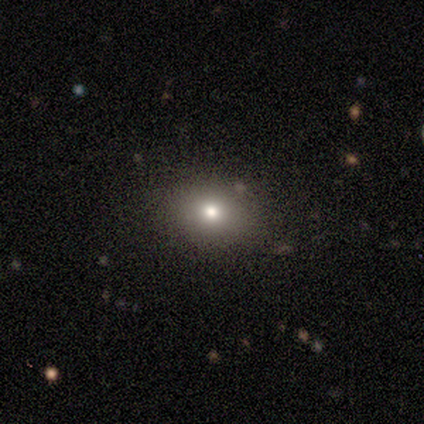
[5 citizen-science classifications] This appears to be a smooth galaxy with no disk features (80%) that is in between round and cigar-shaped (75%). Merging: none (100%).